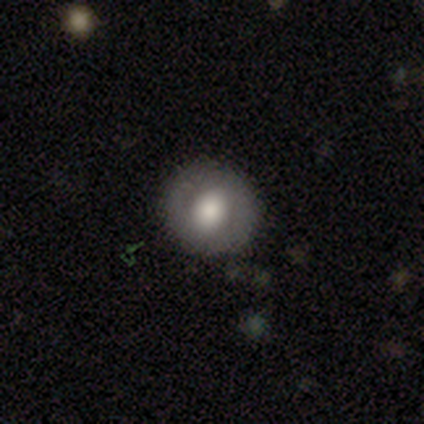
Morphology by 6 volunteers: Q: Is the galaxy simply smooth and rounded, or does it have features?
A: featured or disk — 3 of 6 (50%).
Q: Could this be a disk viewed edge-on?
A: no — 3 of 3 (100%).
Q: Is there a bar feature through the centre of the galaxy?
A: weak — 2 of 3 (67%).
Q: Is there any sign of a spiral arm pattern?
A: no — 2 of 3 (67%).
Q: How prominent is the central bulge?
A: moderate — 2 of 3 (67%).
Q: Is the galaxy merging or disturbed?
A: none — 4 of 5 (80%).